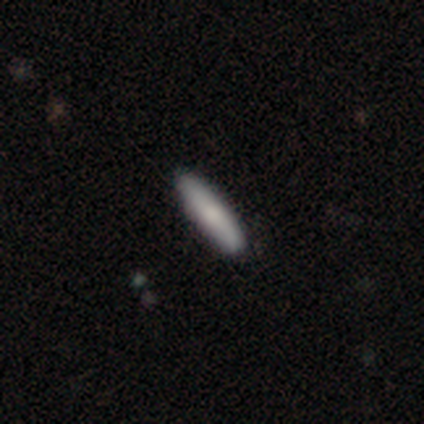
Q: Smooth or featured?
A: smooth (100%)
Q: How rounded?
A: cigar-shaped (62%); runner-up: in between (23%)
Q: Merging?
A: none (85%); runner-up: minor disturbance (15%)